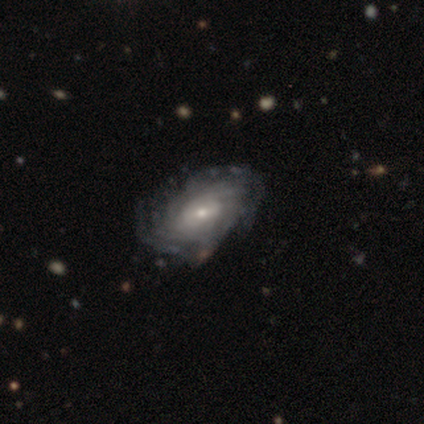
A featured or disk galaxy (50%) viewed edge-on (50%, tied with no) with a rounded central bulge (100%).

Vote fractions:
- Smooth or featured? featured or disk: 50% / smooth: 25% / star or artifact: 25%
- Edge-on disk? yes: 50% (tied) / no: 50% (tied)
- Edge-on bulge? rounded: 100% / boxy: 0% / none: 0%
- Merging? none: 67% / minor disturbance: 33% / major disturbance: 0% / merger: 0%